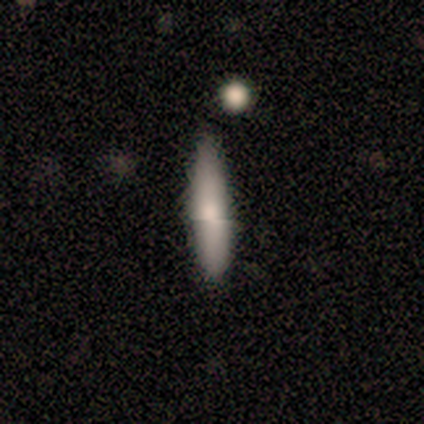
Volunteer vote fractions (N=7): smooth-or-featured: smooth: 86% | star or artifact: 14% | featured or disk: 0%
  how-rounded: cigar-shaped: 83% | in between: 17% | round: 0%
  merging: none: 67% | minor disturbance: 33% | major disturbance: 0% | merger: 0%